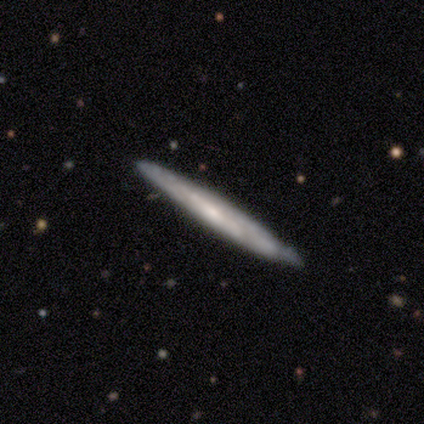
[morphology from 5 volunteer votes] Volunteers were most divided on "edge-on disk": yes: 60%, no: 40%. More confident: smooth or featured — featured or disk (100%); merging — none (80%); edge-on bulge — none (67%).